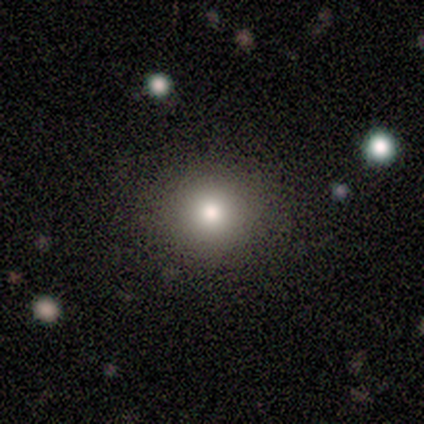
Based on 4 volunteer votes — This is likely a smooth galaxy (75%). How rounded: clearly round (100%). Merging: likely none (75%).